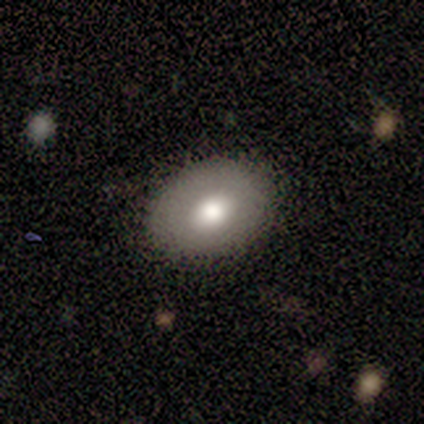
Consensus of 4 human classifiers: Smooth or featured?
  - smooth: 75% *
  - featured or disk: 25%
  - star or artifact: 0%
How rounded?
  - in between: 100% *
  - round: 0%
  - cigar-shaped: 0%
Merging?
  - none: 100% *
  - minor disturbance: 0%
  - major disturbance: 0%
  - merger: 0%